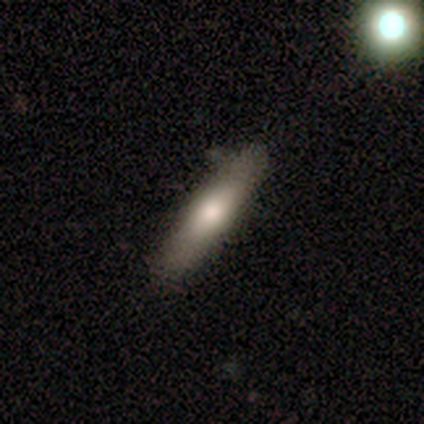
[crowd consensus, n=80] A smooth galaxy with no disk features (84%) that is cigar-shaped (84%).

Vote fractions:
- Smooth or featured? smooth: 84% / featured or disk: 11% / star or artifact: 5%
- How rounded? cigar-shaped: 84% / in between: 16% / round: 0%
- Merging? none: 39% / minor disturbance: 7% / merger: 7% / major disturbance: 1%